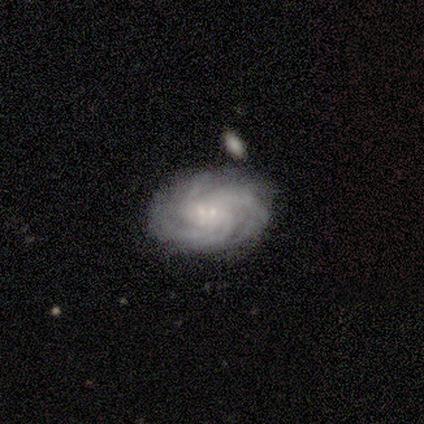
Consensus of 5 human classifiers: Q: Smooth or featured?
A: featured or disk (100%)
Q: Edge-on disk?
A: no (100%)
Q: Bar?
A: no (60%); runner-up: weak (40%)
Q: Spiral arms?
A: yes (100%)
Q: Spiral winding?
A: tight (80%); runner-up: loose (20%)
Q: Spiral arm count?
A: 3 (40%); tied with: 4 (40%)
Q: Bulge size?
A: small (60%); runner-up: moderate (40%)
Q: Merging?
A: none (80%); runner-up: minor disturbance (20%)